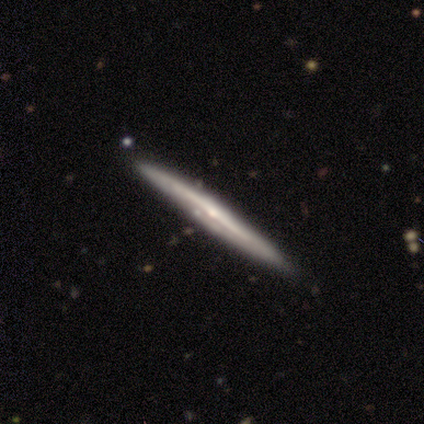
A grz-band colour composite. It shows a featured or disk galaxy (82%) viewed edge-on (100%) with a rounded central bulge (48%). Merging: none (82%).